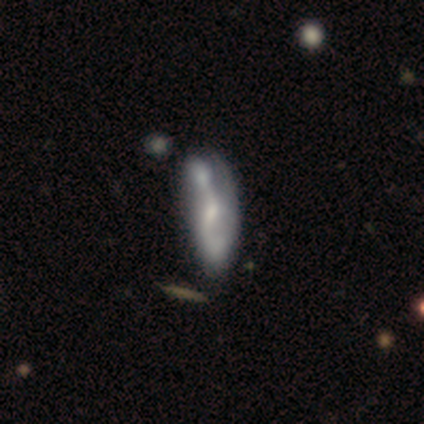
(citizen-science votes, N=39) Smooth or featured?
  - featured or disk: 64% *
  - smooth: 36%
  - star or artifact: 0%
Edge-on disk?
  - no: 92% *
  - yes: 8%
Bar?
  - no: 43% *
  - weak: 39%
  - strong: 17%
Spiral arms?
  - yes: 78% *
  - no: 22%
Spiral winding?
  - loose: 61% *
  - medium: 28%
  - tight: 11%
Spiral arm count?
  - 2: 50% *
  - 1: 22%
  - can't tell: 22%
  - 3: 6%
  - 4: 0%
  - more than 4: 0%
Bulge size?
  - small: 52% *
  - moderate: 26%
  - none: 17%
  - large: 4%
  - dominant: 0%
Merging?
  - merger: 44% *
  - none: 13%
  - major disturbance: 13%
  - minor disturbance: 10%